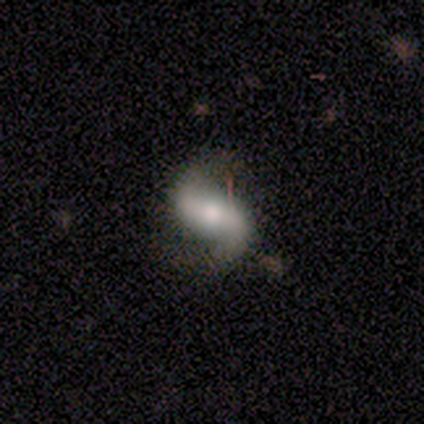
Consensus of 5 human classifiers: This appears to be a featured or disk galaxy (100%) with a strong bar (40%, tied with weak), 2 (100%) loose (75%) spiral arms (80%) and a large central bulge (40%, tied with small). Merging: none (40%, tied with minor disturbance).